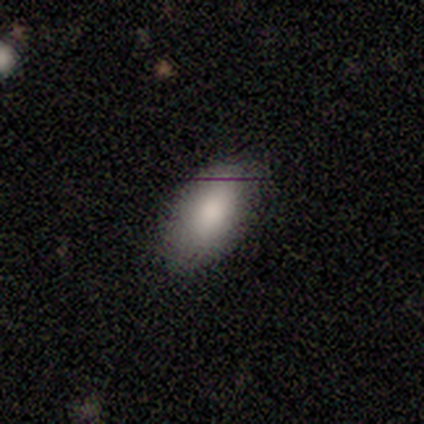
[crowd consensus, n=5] A smooth galaxy with no disk features (100%) that is in between round and cigar-shaped (100%). Merging: none (80%).